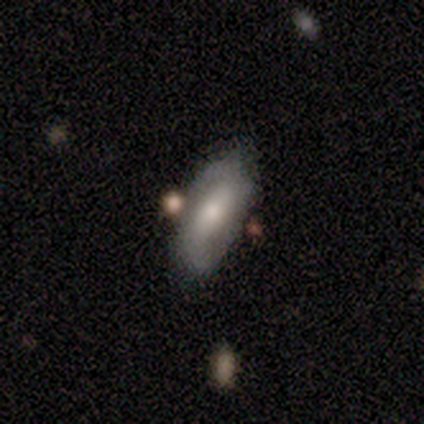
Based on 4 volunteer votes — A featured or disk galaxy (75%) with a strong bar (33%, tied with weak and no), 2 (100%) tight (50%, tied with loose) spiral arms (67%) and a moderate central bulge (67%).

Vote fractions:
- Smooth or featured? featured or disk: 75% / smooth: 25% / star or artifact: 0%
- Edge-on disk? no: 100% / yes: 0%
- Bar? strong: 33% (tied) / weak: 33% (tied) / no: 33% (tied)
- Spiral arms? yes: 67% / no: 33%
- Spiral winding? tight: 50% (tied) / loose: 50% (tied) / medium: 0%
- Spiral arm count? 2: 100% / 1: 0% / 3: 0% / 4: 0% / more than 4: 0% / can't tell: 0%
- Bulge size? moderate: 67% / large: 33% / dominant: 0% / small: 0% / none: 0%
- Merging? none: 75% / merger: 25% / minor disturbance: 0% / major disturbance: 0%